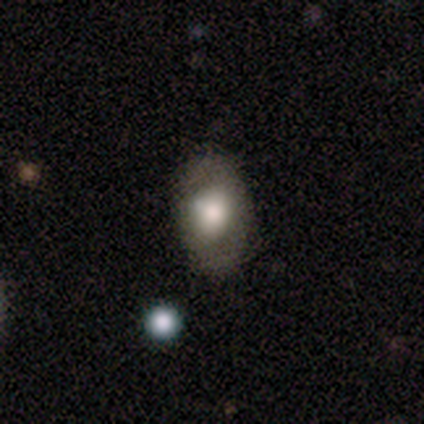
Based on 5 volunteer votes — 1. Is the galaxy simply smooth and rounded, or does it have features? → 80% smooth, 20% featured or disk, 0% star or artifact.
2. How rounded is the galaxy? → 75% in between, 25% round, 0% cigar-shaped.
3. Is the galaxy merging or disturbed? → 100% none, 0% minor disturbance, 0% major disturbance, 0% merger.